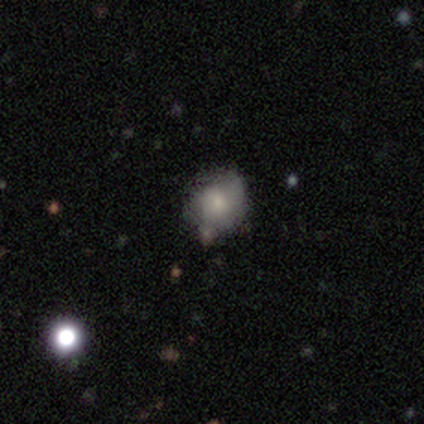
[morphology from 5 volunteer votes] smooth_or_featured: smooth (p=0.40) [tied with: star or artifact p=0.40]
how_rounded: round (p=0.50) [tied with: in between p=0.50]
merging: none (p=0.67) [alt: merger p=0.33]